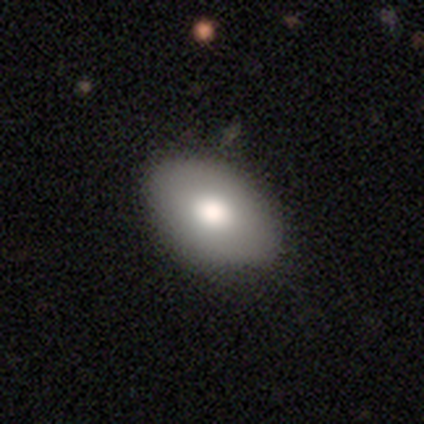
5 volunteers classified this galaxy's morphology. smooth 40% (tied), star or artifact 40% (tied), featured or disk 20%. Down the decision tree: how rounded — in between (100%); merging — none (67%).